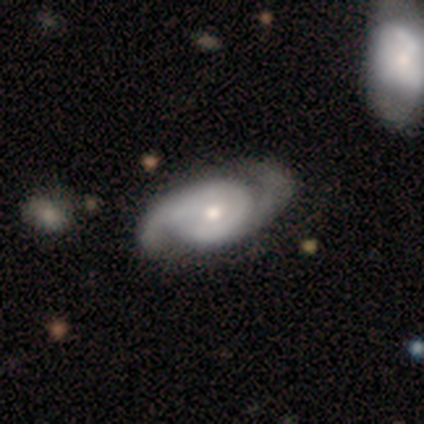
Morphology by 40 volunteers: type=featured or disk (75%); edge-on=no (100%); bar=no (70%); spiral arms=yes (97%); winding=medium (48%); arm count=2 (86%); bulge=moderate (70%); merging=none (57%).